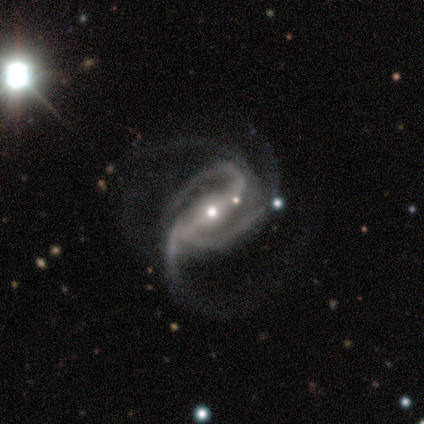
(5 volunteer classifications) Smooth or featured?
  - featured or disk: 100% *
  - smooth: 0%
  - star or artifact: 0%
Edge-on disk?
  - no: 100% *
  - yes: 0%
Bar?
  - strong: 100% *
  - weak: 0%
  - no: 0%
Spiral arms?
  - yes: 100% *
  - no: 0%
Spiral winding?
  - medium: 60% *
  - tight: 40%
  - loose: 0%
Spiral arm count?
  - 3: 40% * (tied)
  - 4: 40% * (tied)
  - can't tell: 20%
  - 1: 0%
  - 2: 0%
  - more than 4: 0%
Bulge size?
  - moderate: 60% *
  - small: 40%
  - dominant: 0%
  - large: 0%
  - none: 0%
Merging?
  - none: 60% *
  - major disturbance: 40%
  - minor disturbance: 0%
  - merger: 0%